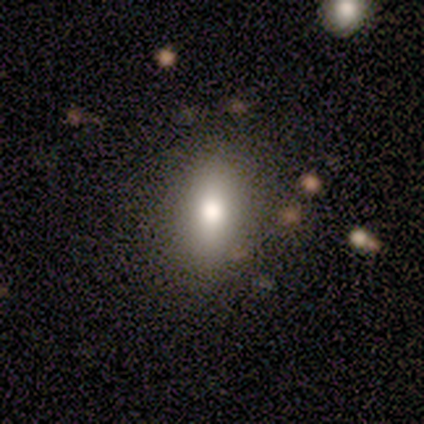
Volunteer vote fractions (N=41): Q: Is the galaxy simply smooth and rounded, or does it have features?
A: smooth — 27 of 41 (66%).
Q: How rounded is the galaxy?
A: in between — 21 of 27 (78%).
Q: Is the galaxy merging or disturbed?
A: none — 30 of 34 (88%).